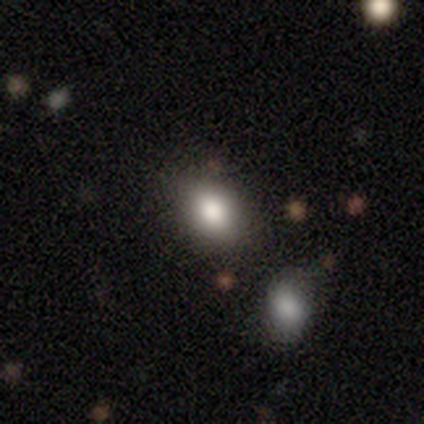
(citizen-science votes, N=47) A smooth galaxy with no disk features (81%) that is in between round and cigar-shaped (63%). Merging: none (82%).